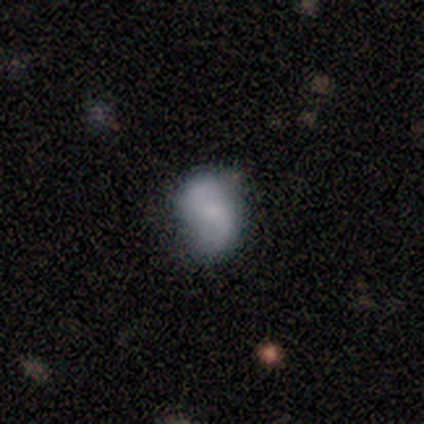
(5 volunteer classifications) Smooth or featured: featured or disk — 80% (smooth — 20%)
Edge-on disk: no — 100%
Bar: no — 75% (weak — 25%)
Spiral arms: yes — 100%
Spiral winding: medium — 50% (tied with loose — 50%)
Spiral arm count: 2 — 75% (can't tell — 25%)
Bulge size: small — 50% (moderate — 25%)
Merging: none — 80% (minor disturbance — 20%)